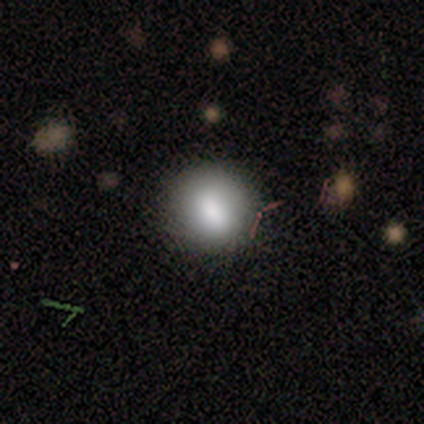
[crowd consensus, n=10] A smooth galaxy with no disk features (90%) that is round (89%). Merging: none (80%).